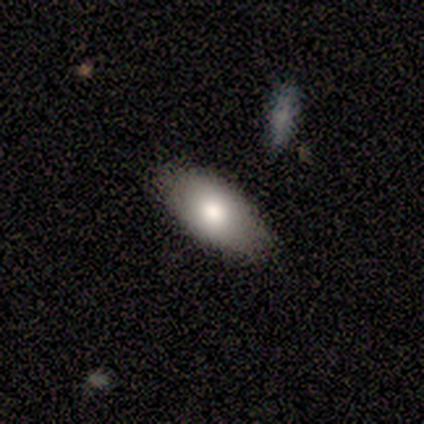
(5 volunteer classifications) Smooth or featured: smooth — 40% (tied with featured or disk — 40%)
How rounded: in between — 100%
Merging: none — 100%